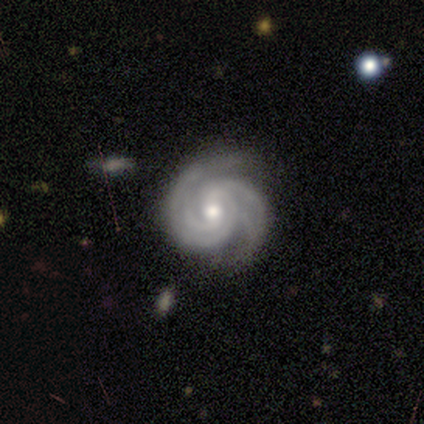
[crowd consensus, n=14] Smooth or featured: featured or disk — 93% (smooth — 7%)
Edge-on disk: no — 100%
Bar: no — 54% (weak — 38%)
Spiral arms: yes — 100%
Spiral winding: tight — 100%
Spiral arm count: 2 — 31% (tied with 4 — 31%)
Bulge size: moderate — 92% (small — 8%)
Merging: none — 79% (minor disturbance — 21%)